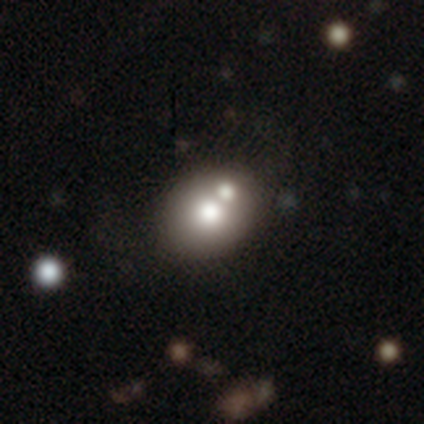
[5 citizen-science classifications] Q: Smooth or featured?
A: smooth (60%); runner-up: featured or disk (40%)
Q: How rounded?
A: round (100%)
Q: Merging?
A: none (80%); runner-up: merger (20%)